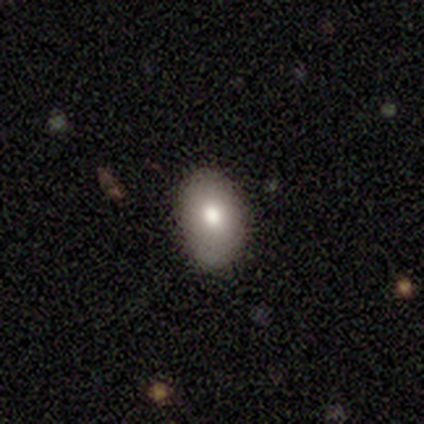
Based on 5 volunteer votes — Smooth or featured? 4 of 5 (80%) said smooth. How rounded? 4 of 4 (100%) said in between. Merging? 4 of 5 (80%) said none.